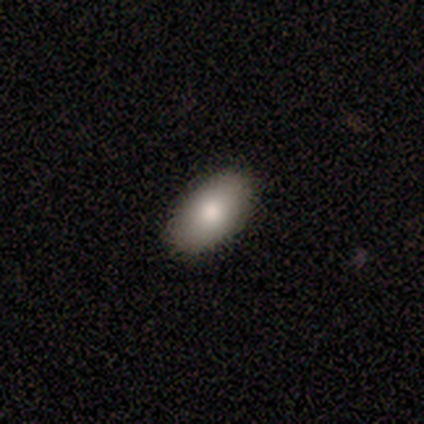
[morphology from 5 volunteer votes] Q: Smooth or featured?
A: smooth (100%)
Q: How rounded?
A: in between (100%)
Q: Merging?
A: none (80%); runner-up: minor disturbance (20%)